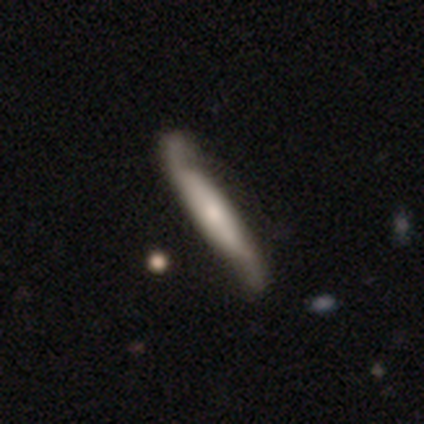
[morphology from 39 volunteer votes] smooth-or-featured: featured or disk: 74% | smooth: 23% | star or artifact: 3%
  disk-edge-on: no: 52% | yes: 48%
    bar: no: 60% | strong: 20% | weak: 20%
    has-spiral-arms: yes: 93% | no: 7%
      spiral-winding: loose: 64% | medium: 36% | tight: 0%
      spiral-arm-count: 2: 93% | can't tell: 7% | 1: 0% | 3: 0% | 4: 0% | more than 4: 0%
    bulge-size: moderate: 40% (tied) | small: 40% (tied) | none: 13% | dominant: 7% | large: 0%
  merging: none: 47% | minor disturbance: 11% | major disturbance: 11% | merger: 5%